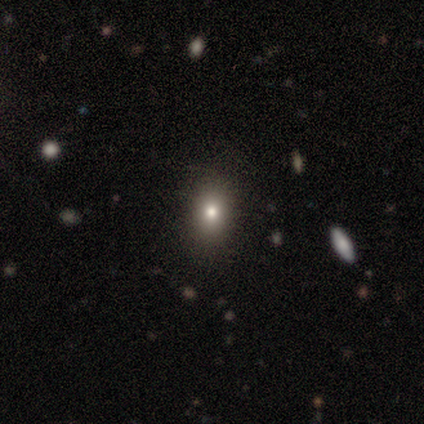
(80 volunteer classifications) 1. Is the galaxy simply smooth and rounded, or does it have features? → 75% smooth, 15% star or artifact, 10% featured or disk.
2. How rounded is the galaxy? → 62% in between, 38% round, 0% cigar-shaped.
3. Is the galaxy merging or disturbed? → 47% none, 6% minor disturbance, 0% major disturbance, 0% merger.